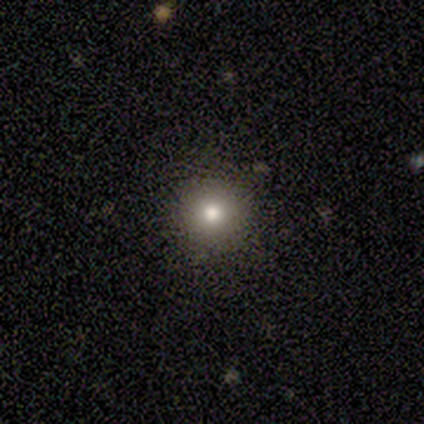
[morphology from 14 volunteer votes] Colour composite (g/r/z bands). It shows a smooth galaxy with no disk features (64%) that is round (100%). Merging: none (100%).